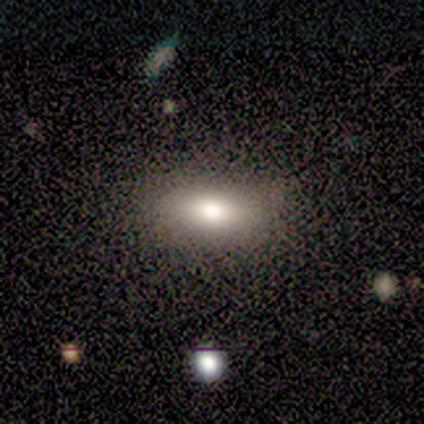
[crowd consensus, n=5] Q: Smooth or featured?
A: smooth (100%)
Q: How rounded?
A: in between (100%)
Q: Merging?
A: none (80%); runner-up: minor disturbance (20%)